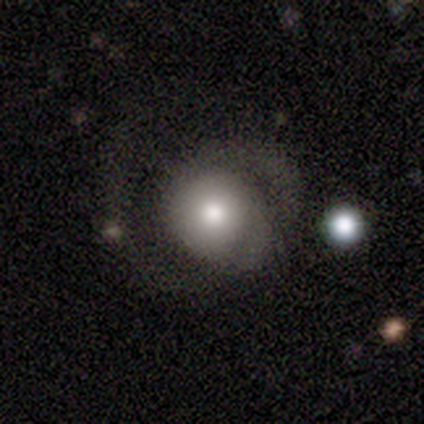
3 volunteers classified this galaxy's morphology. smooth_or_featured: smooth (p=0.67) [alt: featured or disk p=0.33]
how_rounded: round (p=1.00)
merging: none (p=0.67) [alt: major disturbance p=0.33]